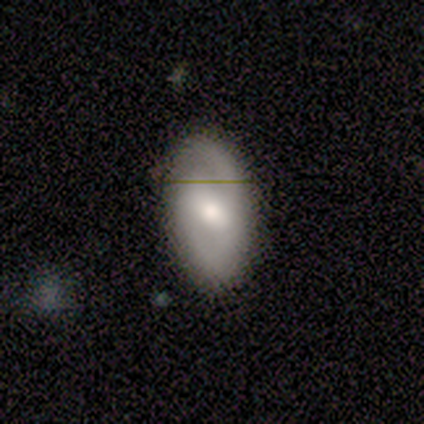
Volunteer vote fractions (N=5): Smooth or featured? featured or disk (80%)
Edge-on disk? no (100%)
Bar? weak (50%)
Spiral arms? yes (75%)
Spiral winding? medium (67%)
Spiral arm count? 2 (67%)
Bulge size? moderate (75%)
Merging? none (80%)